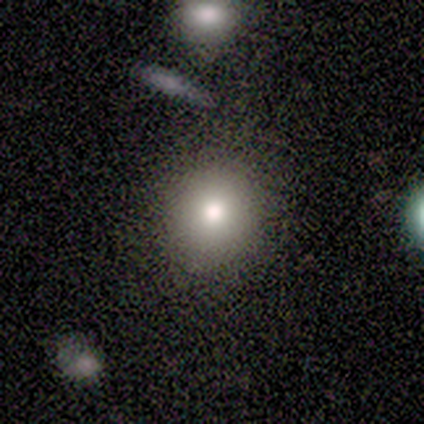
A smooth galaxy with no disk features (100%) that is round (75%). Merging: minor disturbance (75%).